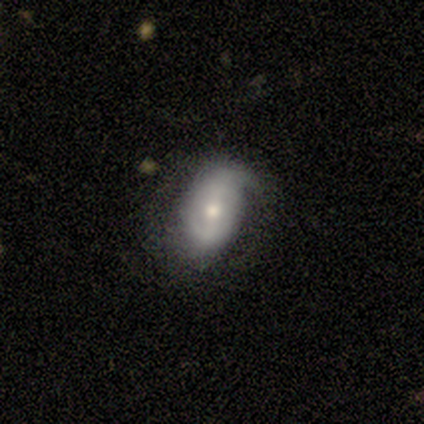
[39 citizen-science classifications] Smooth or featured?
  - featured or disk: 62% *
  - smooth: 26%
  - star or artifact: 13%
Edge-on disk?
  - no: 100% *
  - yes: 0%
Bar?
  - weak: 46% *
  - no: 33%
  - strong: 21%
Spiral arms?
  - yes: 75% *
  - no: 25%
Spiral winding?
  - medium: 44% *
  - tight: 28%
  - loose: 28%
Spiral arm count?
  - 2: 56% *
  - 1: 22%
  - can't tell: 17%
  - 3: 6%
  - 4: 0%
  - more than 4: 0%
Bulge size?
  - small: 50% *
  - moderate: 42%
  - dominant: 4%
  - large: 4%
  - none: 0%
Merging?
  - none: 62% *
  - minor disturbance: 29%
  - major disturbance: 9%
  - merger: 0%